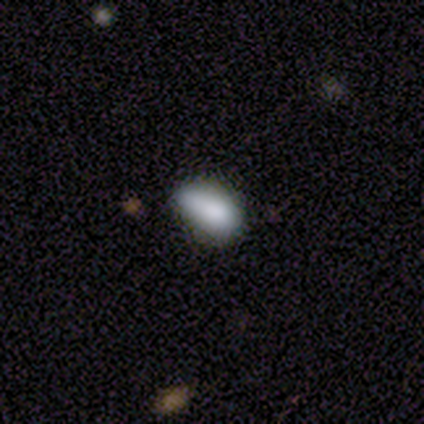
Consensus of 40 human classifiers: smooth_or_featured: smooth (p=0.90) [alt: featured or disk p=0.05]
how_rounded: in between (p=0.86) [alt: cigar-shaped p=0.08]
merging: none (p=0.68) [alt: minor disturbance p=0.18]